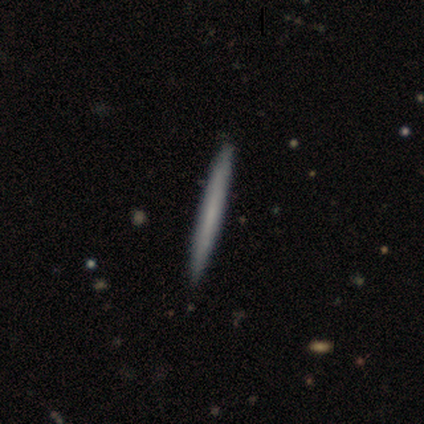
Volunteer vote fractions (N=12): Smooth or featured? 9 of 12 (75%) said smooth. How rounded? 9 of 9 (100%) said cigar-shaped. Merging? 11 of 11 (100%) said none.